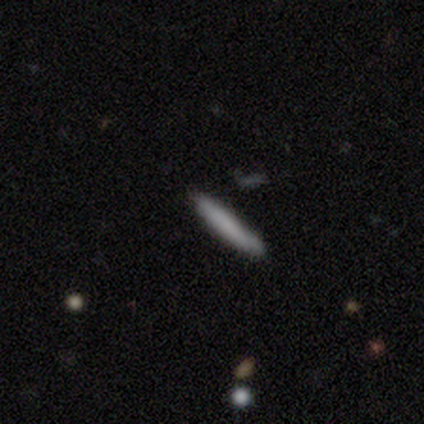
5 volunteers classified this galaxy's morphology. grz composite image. It shows a smooth galaxy with no disk features (80%) that is cigar-shaped (100%). Merging: none (80%).